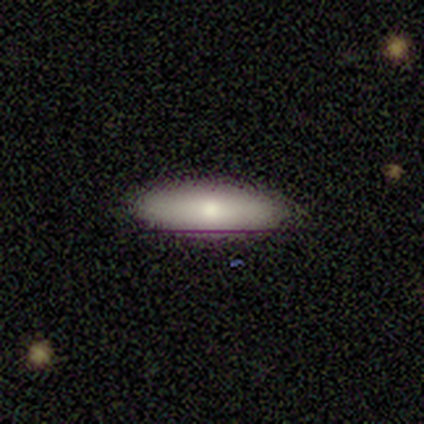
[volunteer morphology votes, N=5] Smooth or featured? smooth (60%)
How rounded? cigar-shaped (67%)
Merging? none (80%)